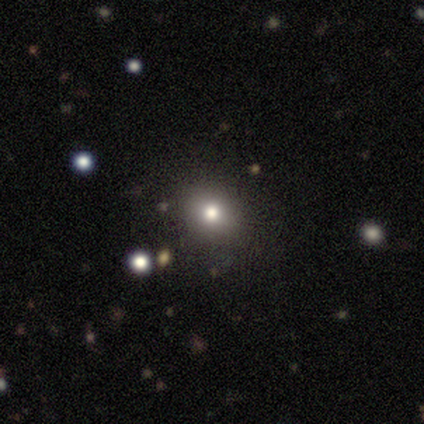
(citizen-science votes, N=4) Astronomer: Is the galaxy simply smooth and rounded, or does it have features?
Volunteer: smooth — 50%, tied with star or artifact at 50%.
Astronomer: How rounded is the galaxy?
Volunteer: round — 100%.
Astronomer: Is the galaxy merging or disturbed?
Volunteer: none — 100%.